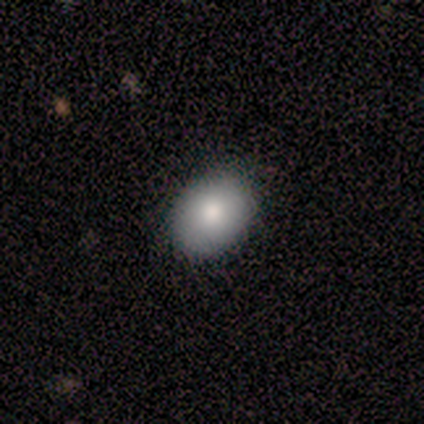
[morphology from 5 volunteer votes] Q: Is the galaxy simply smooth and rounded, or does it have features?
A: smooth — 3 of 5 (60%).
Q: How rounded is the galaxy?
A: in between — 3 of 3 (100%).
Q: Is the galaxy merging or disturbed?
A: none — 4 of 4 (100%).